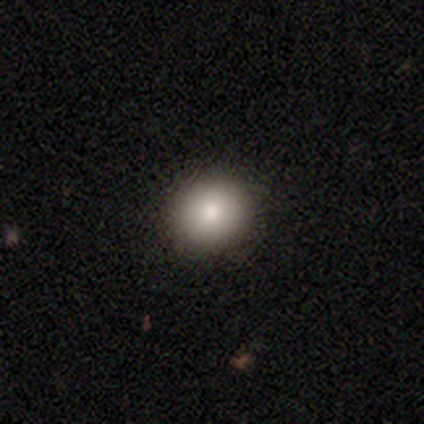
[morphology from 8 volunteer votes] Smooth or featured? 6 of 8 (75%) said smooth. How rounded? 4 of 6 (67%) said round. Merging? 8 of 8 (100%) said none.